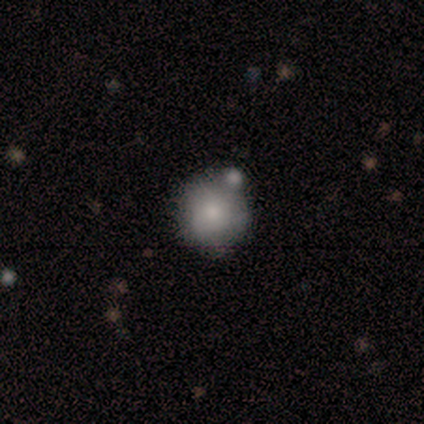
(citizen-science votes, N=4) A smooth galaxy with no disk features (75%) that is round (100%). Merging: none (75%).